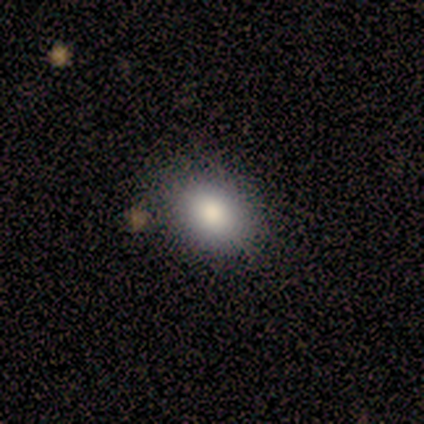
smooth-or-featured: smooth: 100% | featured or disk: 0% | star or artifact: 0%
  how-rounded: in between: 80% | round: 20% | cigar-shaped: 0%
  merging: none: 80% | minor disturbance: 20% | major disturbance: 0% | merger: 0%